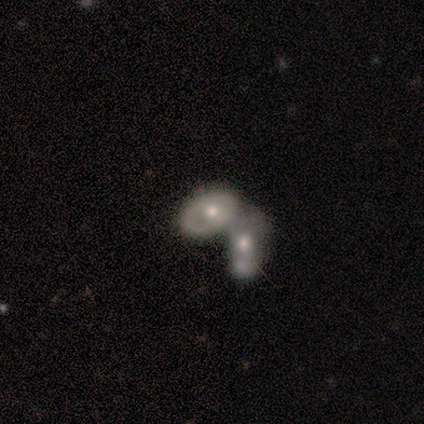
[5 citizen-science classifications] This appears to be a smooth galaxy with no disk features (60%) that is in between round and cigar-shaped (67%). Merging: merger (75%).